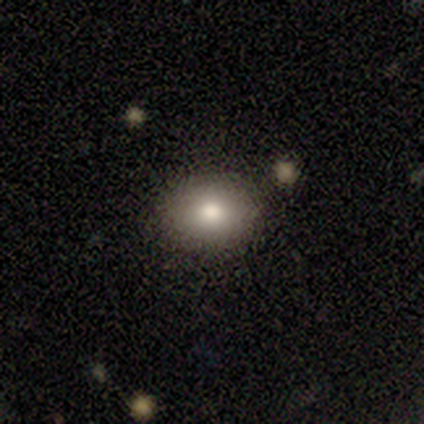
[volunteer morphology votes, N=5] Overall: smooth (100%). How rounded: in between (60%; round 40%). Merging: none (80%).